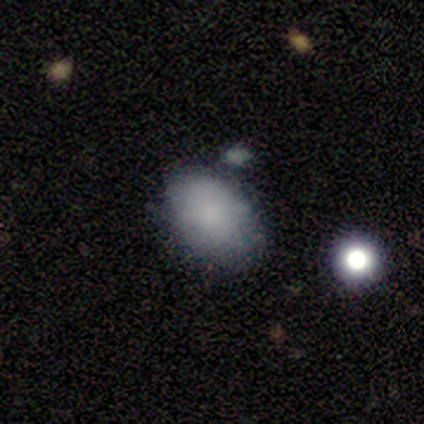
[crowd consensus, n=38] Volunteers were most divided on "merging": none: 56%, minor disturbance: 31%, merger: 14%, major disturbance: 0%. More confident: how rounded — in between (88%); smooth or featured — smooth (87%).